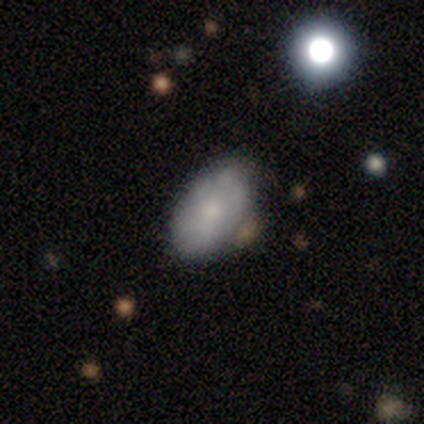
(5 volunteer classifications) This appears to be a smooth galaxy with no disk features (80%) that is in between round and cigar-shaped (100%). Merging: none (40%, tied with minor disturbance).